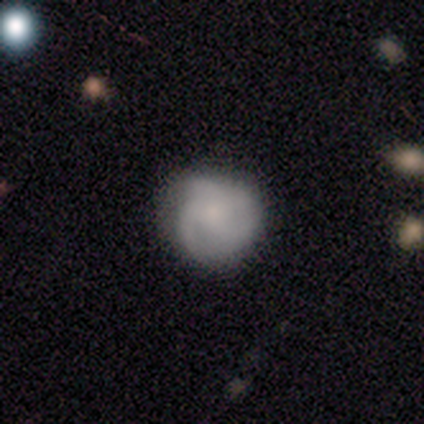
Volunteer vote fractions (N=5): featured or disk 80%, smooth 20%, star or artifact 0%. Down the decision tree: edge-on disk — no (100%); bar — no (100%); spiral arms — yes (100%); spiral arm count — 3 (100%); spiral winding — tight (75%); bulge size — moderate (50%); merging — none (60%).